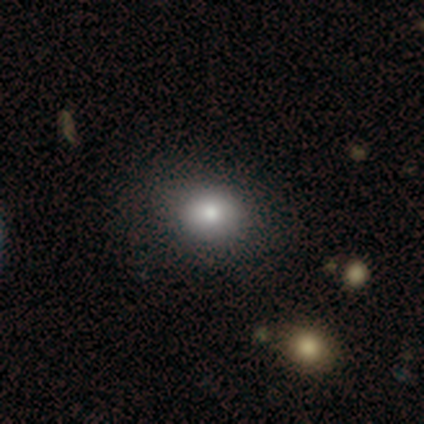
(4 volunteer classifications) smooth-or-featured: smooth: 50% | featured or disk: 25% | star or artifact: 25%
  how-rounded: round: 100% | in between: 0% | cigar-shaped: 0%
  merging: none: 100% | minor disturbance: 0% | major disturbance: 0% | merger: 0%